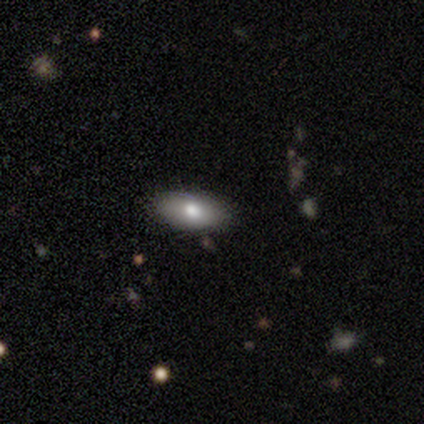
Volunteers were most divided on "merging": none: 80%, major disturbance: 20%, minor disturbance: 0%, merger: 0%. More confident: smooth or featured — smooth (100%); how rounded — in between (100%).